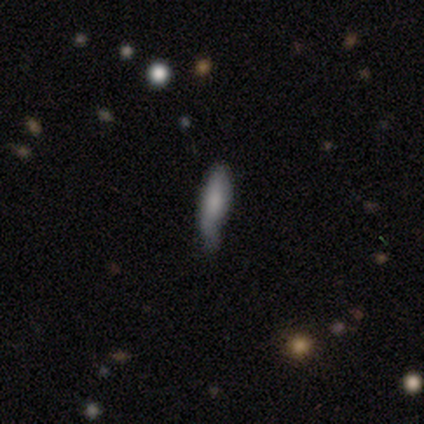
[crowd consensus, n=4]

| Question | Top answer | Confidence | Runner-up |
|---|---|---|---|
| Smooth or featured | smooth | 50% | featured or disk (25%) |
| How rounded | cigar-shaped | 100% | — |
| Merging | minor disturbance | 67% | major disturbance (33%) |